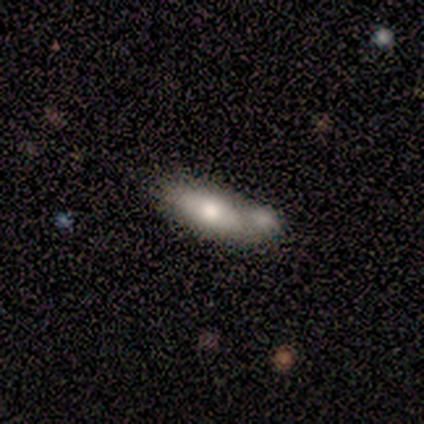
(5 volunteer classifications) Smooth or featured?
  - smooth: 40% * (tied)
  - star or artifact: 40% * (tied)
  - featured or disk: 20%
How rounded?
  - in between: 100% *
  - round: 0%
  - cigar-shaped: 0%
Merging?
  - none: 67% *
  - merger: 33%
  - minor disturbance: 0%
  - major disturbance: 0%